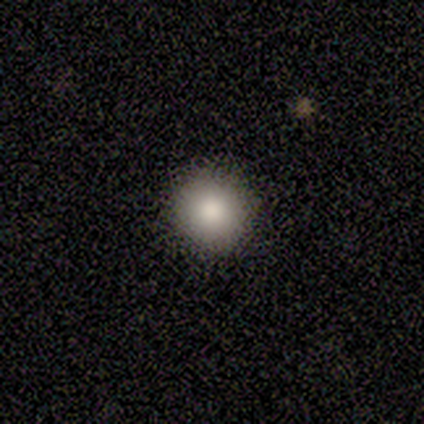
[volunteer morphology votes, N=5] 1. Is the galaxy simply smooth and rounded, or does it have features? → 80% smooth, 20% star or artifact, 0% featured or disk.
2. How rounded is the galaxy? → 100% round, 0% in between, 0% cigar-shaped.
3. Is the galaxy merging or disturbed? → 100% none, 0% minor disturbance, 0% major disturbance, 0% merger.